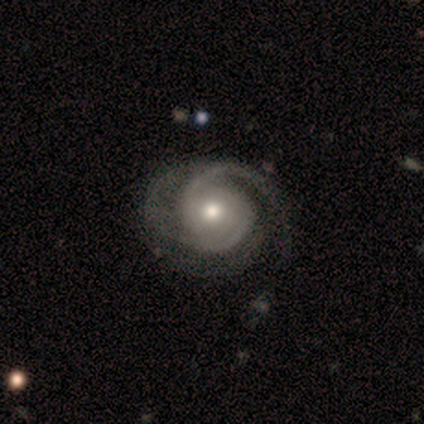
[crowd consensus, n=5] Smooth or featured? 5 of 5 (100%) said featured or disk. Edge-on disk? 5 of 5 (100%) said no. Bar? 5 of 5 (100%) said no. Spiral arms? 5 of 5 (100%) said yes. Spiral winding? 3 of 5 (60%) said tight. Spiral arm count? 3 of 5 (60%) said 2. Bulge size? 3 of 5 (60%) said moderate. Merging? 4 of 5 (80%) said none.